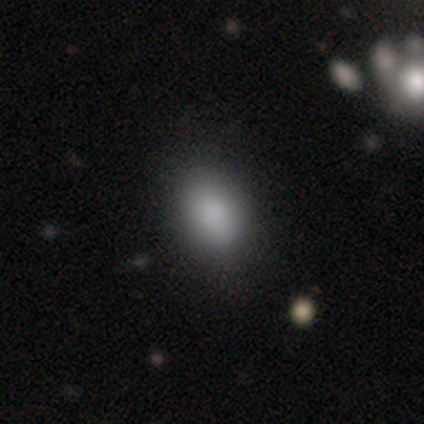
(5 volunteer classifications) A smooth galaxy with no disk features (80%) that is in between round and cigar-shaped (100%).

Vote fractions:
- Smooth or featured? smooth: 80% / star or artifact: 20% / featured or disk: 0%
- How rounded? in between: 100% / round: 0% / cigar-shaped: 0%
- Merging? none: 75% / minor disturbance: 25% / major disturbance: 0% / merger: 0%